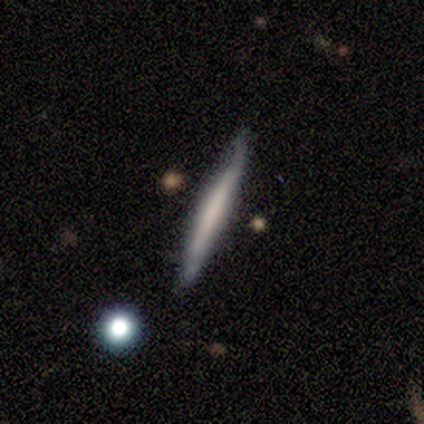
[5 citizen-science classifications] Overall: smooth (60%; featured or disk 40%). How rounded: cigar-shaped (100%). Merging: none (60%; minor disturbance 40%).